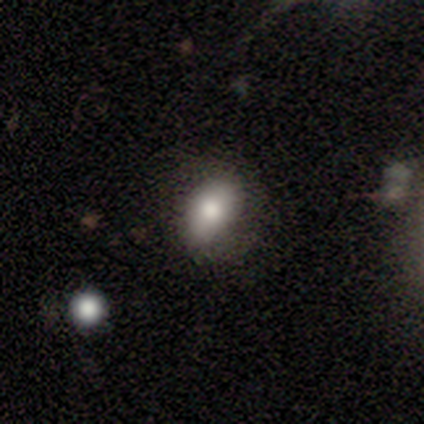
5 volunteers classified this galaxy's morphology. Smooth or featured?
  - smooth: 80% *
  - featured or disk: 20%
  - star or artifact: 0%
How rounded?
  - in between: 75% *
  - round: 25%
  - cigar-shaped: 0%
Merging?
  - none: 100% *
  - minor disturbance: 0%
  - major disturbance: 0%
  - merger: 0%